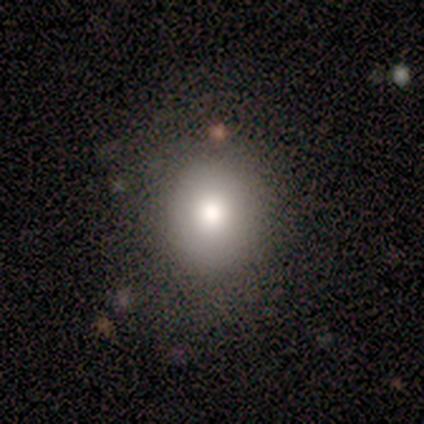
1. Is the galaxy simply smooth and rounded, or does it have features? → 100% smooth, 0% featured or disk, 0% star or artifact.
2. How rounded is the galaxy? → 100% round, 0% in between, 0% cigar-shaped.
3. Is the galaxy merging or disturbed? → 100% none, 0% minor disturbance, 0% major disturbance, 0% merger.